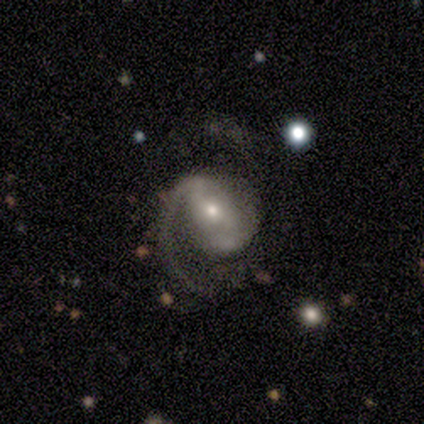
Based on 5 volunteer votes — smooth-or-featured: featured or disk: 80% | smooth: 20% | star or artifact: 0%
  disk-edge-on: no: 100% | yes: 0%
    bar: no: 75% | strong: 25% | weak: 0%
    has-spiral-arms: yes: 100% | no: 0%
      spiral-winding: medium: 50% (tied) | loose: 50% (tied) | tight: 0%
      spiral-arm-count: 2: 50% | 1: 25% | can't tell: 25% | 3: 0% | 4: 0% | more than 4: 0%
    bulge-size: small: 100% | dominant: 0% | large: 0% | moderate: 0% | none: 0%
  merging: none: 60% | major disturbance: 40% | minor disturbance: 0% | merger: 0%